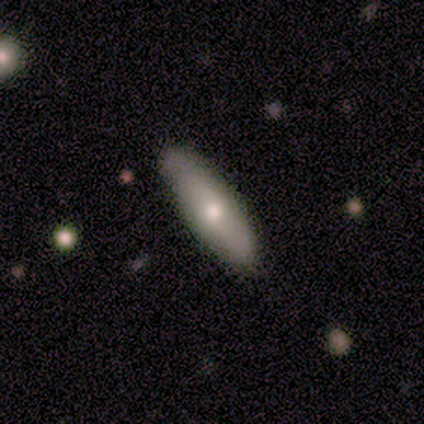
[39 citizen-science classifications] smooth_or_featured: smooth (p=0.62) [alt: featured or disk p=0.31]
how_rounded: in between (p=0.58) [alt: cigar-shaped p=0.38]
merging: none (p=0.75) [alt: minor disturbance p=0.25]